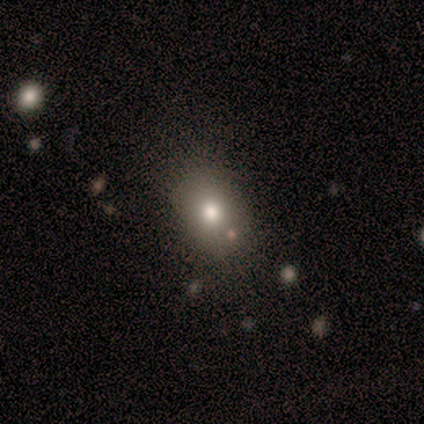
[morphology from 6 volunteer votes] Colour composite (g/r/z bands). It shows a smooth galaxy with no disk features (67%) that is round (50%, tied with in between). Merging: none (80%).